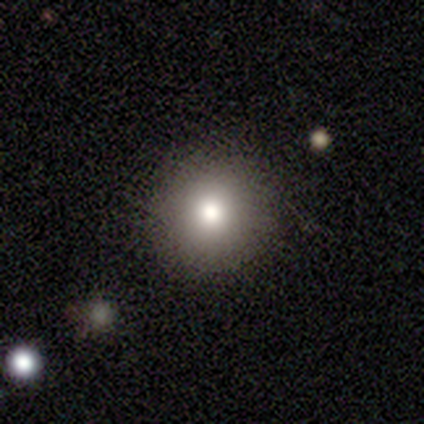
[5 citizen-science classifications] Q: Smooth or featured?
A: smooth (60%); runner-up: star or artifact (40%)
Q: How rounded?
A: round (100%)
Q: Merging?
A: none (67%); runner-up: merger (33%)